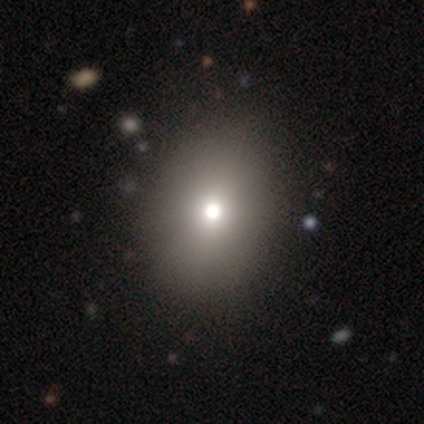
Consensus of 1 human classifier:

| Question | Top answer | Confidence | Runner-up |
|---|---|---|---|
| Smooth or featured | star or artifact | 100% | — |